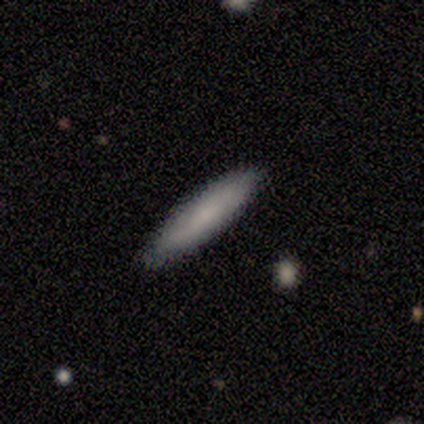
Smooth or featured: smooth — 67% (featured or disk — 33%)
How rounded: cigar-shaped — 100%
Merging: none — 100%